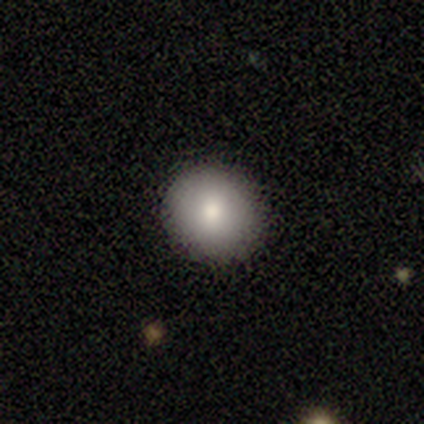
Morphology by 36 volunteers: Smooth or featured: smooth — 75% (star or artifact — 14%)
How rounded: round — 89% (in between — 11%)
Merging: none — 94% (major disturbance — 6%)